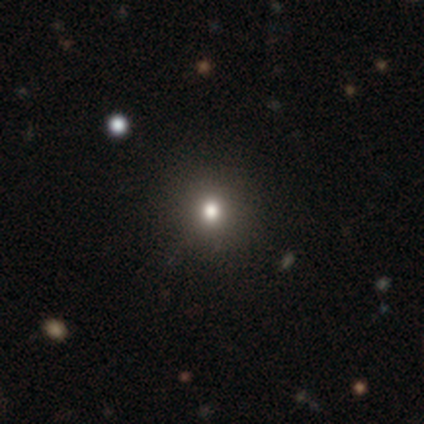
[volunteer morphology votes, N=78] smooth_or_featured: smooth (p=0.74) [alt: featured or disk p=0.13]
how_rounded: round (p=0.84) [alt: in between p=0.16]
merging: none (p=0.49) [alt: merger p=0.03]